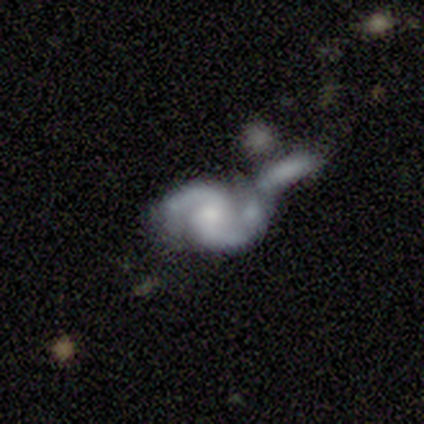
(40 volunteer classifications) Q: Smooth or featured?
A: featured or disk (90%); runner-up: smooth (10%)
Q: Edge-on disk?
A: no (97%); runner-up: yes (3%)
Q: Bar?
A: no (60%); runner-up: weak (29%)
Q: Spiral arms?
A: yes (94%); runner-up: no (6%)
Q: Spiral winding?
A: medium (48%); runner-up: tight (33%)
Q: Spiral arm count?
A: 2 (94%); runner-up: 1 (3%)
Q: Bulge size?
A: moderate (40%); runner-up: small (34%)
Q: Merging?
A: merger (57%); runner-up: none (20%)